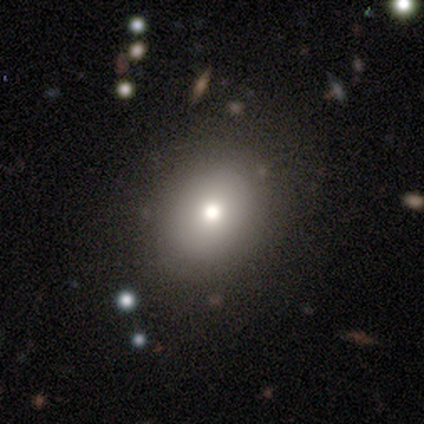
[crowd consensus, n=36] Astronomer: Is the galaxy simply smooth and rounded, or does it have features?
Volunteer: smooth — 61%.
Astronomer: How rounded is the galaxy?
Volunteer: round — 68%.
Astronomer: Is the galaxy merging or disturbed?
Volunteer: none — 79%.